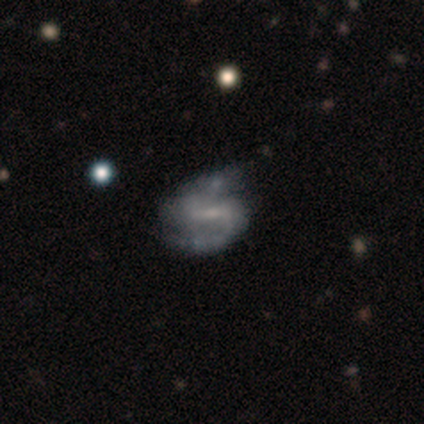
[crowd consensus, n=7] A featured or disk galaxy (100%) with a strong bar (57%), 2 (100%) medium (57%) spiral arms (100%) and a small central bulge (43%, tied with none). Merging: none (86%).